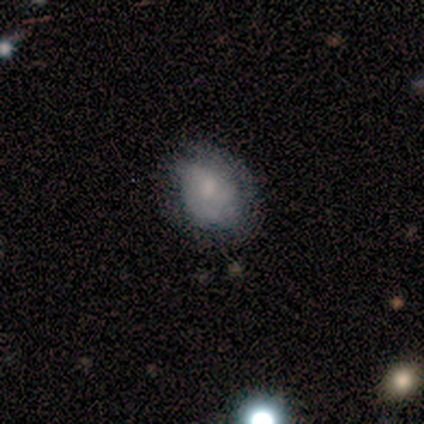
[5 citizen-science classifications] Overall: smooth (80%). How rounded: round (75%). Merging: none (80%).